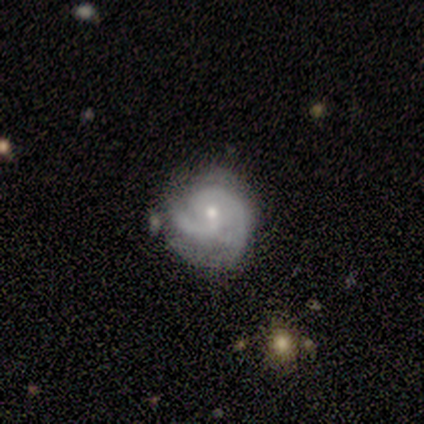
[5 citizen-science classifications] Overall: featured or disk (100%). Edge-on disk: no (100%). Bar: no (60%; weak 40%). Spiral arms: yes (100%). Spiral arm count: 2 (80%). Spiral winding: medium (60%; tight 40%). Bulge size: small (100%). Merging: none (60%; minor disturbance 20%).